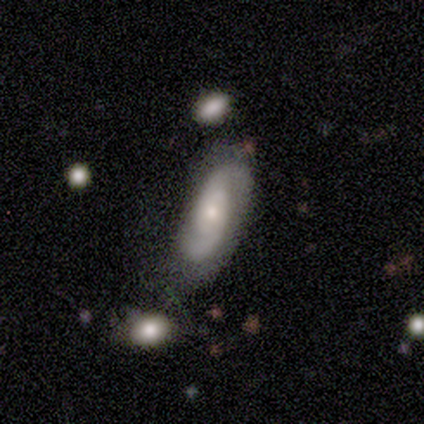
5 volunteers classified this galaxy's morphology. This is clearly a featured or disk galaxy (80%). It is clearly not viewed edge-on (100%). Bar: likely no (75%). Spiral arm pattern: clearly yes (100%). Spiral arm count: possibly 2 (50%, tied with can't tell). Spiral winding: likely tight (75%). Central bulge: likely small (75%). Merging: likely none (60%).